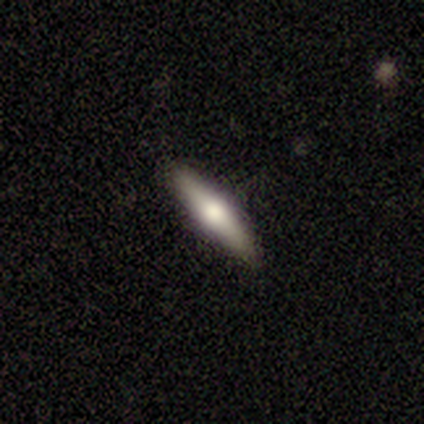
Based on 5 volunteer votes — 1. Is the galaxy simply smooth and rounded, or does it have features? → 60% smooth, 40% featured or disk, 0% star or artifact.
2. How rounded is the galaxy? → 100% cigar-shaped, 0% round, 0% in between.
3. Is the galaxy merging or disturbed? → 100% none, 0% minor disturbance, 0% major disturbance, 0% merger.